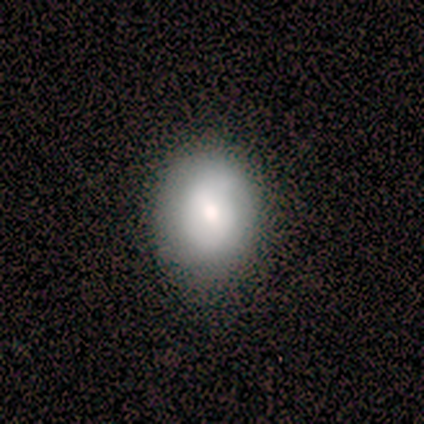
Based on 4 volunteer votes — Morphology: type=smooth (100%); roundness=in between (100%); merging=none (75%).